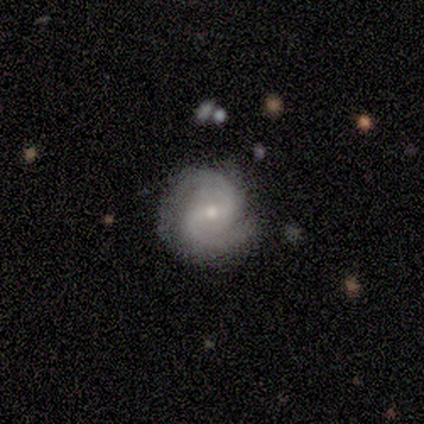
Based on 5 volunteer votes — A featured or disk galaxy (80%) with a weak bar (75%), 2 (75%) medium (50%) spiral arms (100%) and a small central bulge (75%). Merging: none (80%).